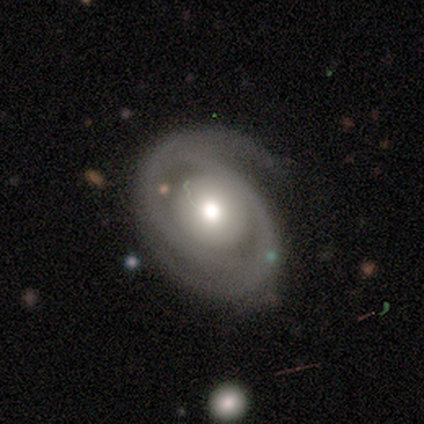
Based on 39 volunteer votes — Smooth or featured?
  - featured or disk: 90% *
  - smooth: 10%
  - star or artifact: 0%
Edge-on disk?
  - no: 100% *
  - yes: 0%
Bar?
  - no: 91% *
  - weak: 9%
  - strong: 0%
Spiral arms?
  - yes: 83% *
  - no: 17%
Spiral winding?
  - tight: 69% *
  - loose: 17%
  - medium: 14%
Spiral arm count?
  - 2: 69% *
  - 1: 14%
  - can't tell: 14%
  - 3: 3%
  - 4: 0%
  - more than 4: 0%
Bulge size?
  - moderate: 63% *
  - large: 29%
  - dominant: 3%
  - small: 3%
  - none: 3%
Merging?
  - none: 36% *
  - minor disturbance: 18%
  - major disturbance: 15%
  - merger: 0%